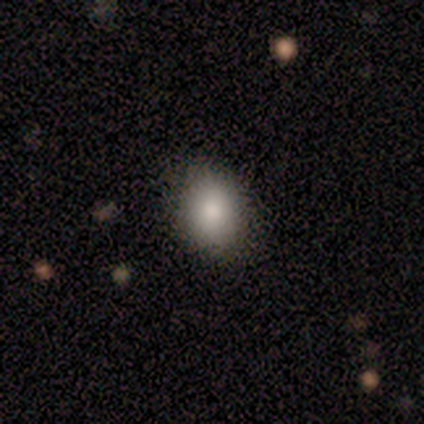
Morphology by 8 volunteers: A smooth galaxy with no disk features (100%) that is in between round and cigar-shaped (62%).

Vote fractions:
- Smooth or featured? smooth: 100% / featured or disk: 0% / star or artifact: 0%
- How rounded? in between: 62% / round: 38% / cigar-shaped: 0%
- Merging? none: 75% / minor disturbance: 25% / major disturbance: 0% / merger: 0%